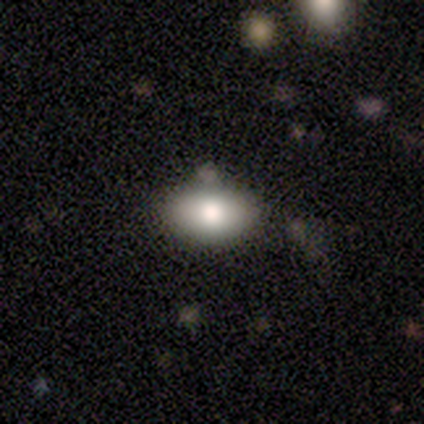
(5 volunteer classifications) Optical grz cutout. It shows a smooth galaxy with no disk features (100%) that is in between round and cigar-shaped (80%). Merging: none (100%).